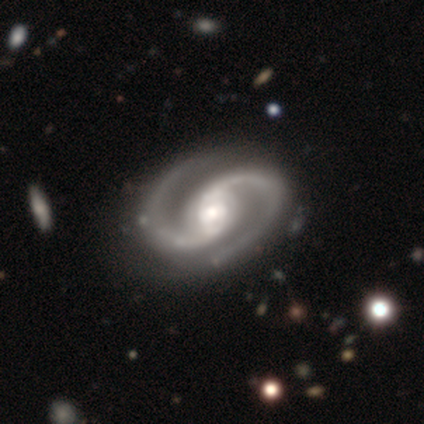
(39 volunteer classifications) A featured or disk galaxy (97%) with no bar (42%), 2 (97%) medium (61%) spiral arms (100%) and a moderate central bulge (63%). Merging: none (64%).